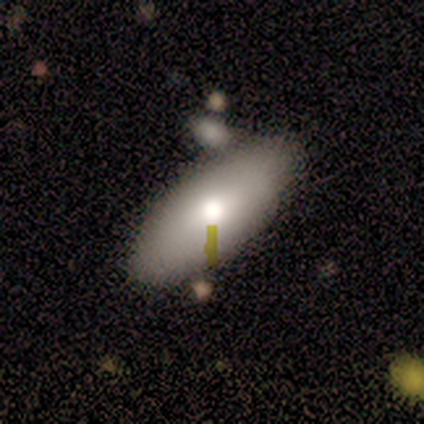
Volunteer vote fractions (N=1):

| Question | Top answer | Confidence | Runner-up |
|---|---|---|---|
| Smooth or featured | featured or disk | 100% | — |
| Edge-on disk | no | 100% | — |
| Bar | no | 100% | — |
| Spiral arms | no | 100% | — |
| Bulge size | moderate | 100% | — |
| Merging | none | 100% | — |